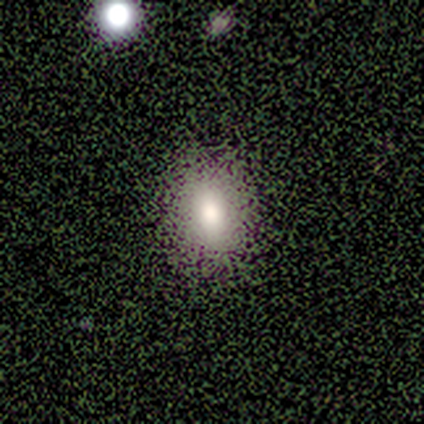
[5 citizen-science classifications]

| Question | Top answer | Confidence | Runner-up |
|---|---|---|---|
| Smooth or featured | smooth | 100% | — |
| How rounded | in between | 100% | — |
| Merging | none | 80% | minor disturbance (20%) |